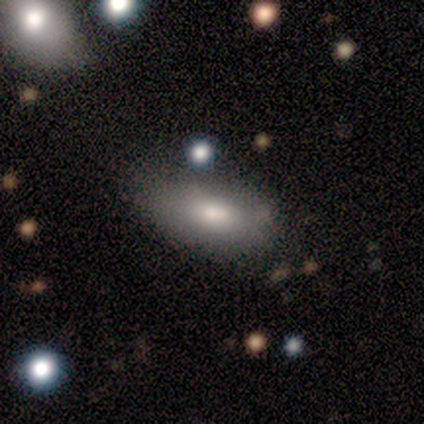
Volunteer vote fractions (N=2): This appears to be a smooth galaxy with no disk features (100%) that is in between round and cigar-shaped (100%). Merging: minor disturbance (50%, tied with merger).